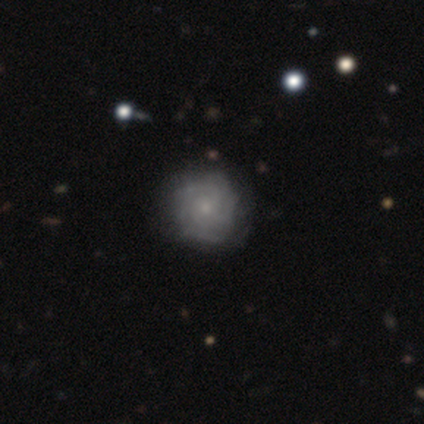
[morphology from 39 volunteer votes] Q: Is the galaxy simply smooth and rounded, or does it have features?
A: featured or disk — 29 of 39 (74%).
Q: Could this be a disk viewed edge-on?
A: no — 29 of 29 (100%).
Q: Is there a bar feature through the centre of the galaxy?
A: no — 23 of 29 (79%).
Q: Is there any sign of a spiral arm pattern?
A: yes — 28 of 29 (97%).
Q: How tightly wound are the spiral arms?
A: tight — 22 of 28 (79%).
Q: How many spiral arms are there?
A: can't tell — 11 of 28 (39%).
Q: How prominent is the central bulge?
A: small — 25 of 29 (86%).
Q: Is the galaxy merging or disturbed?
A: none — 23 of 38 (61%).